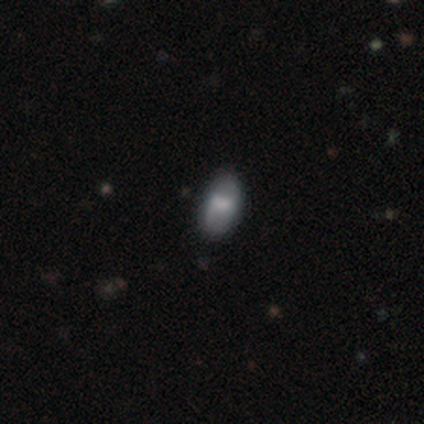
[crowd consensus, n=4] smooth 75%, featured or disk 25%, star or artifact 0%. Down the decision tree: how rounded — in between (100%); merging — none (100%).